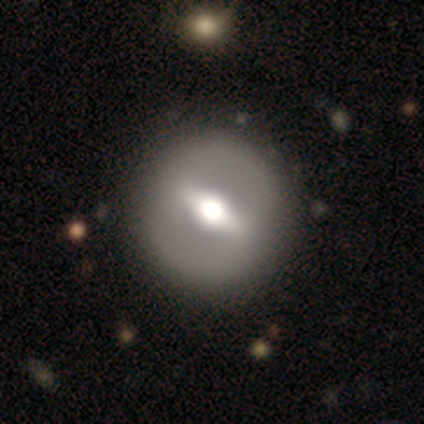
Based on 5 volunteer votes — A featured or disk galaxy (60%) with a strong bar (100%), no spiral arms (100%) and a moderate central bulge (67%).

Vote fractions:
- Smooth or featured? featured or disk: 60% / smooth: 20% / star or artifact: 20%
- Edge-on disk? no: 100% / yes: 0%
- Bar? strong: 100% / weak: 0% / no: 0%
- Spiral arms? no: 100% / yes: 0%
- Bulge size? moderate: 67% / dominant: 33% / large: 0% / small: 0% / none: 0%
- Merging? none: 75% / minor disturbance: 25% / major disturbance: 0% / merger: 0%